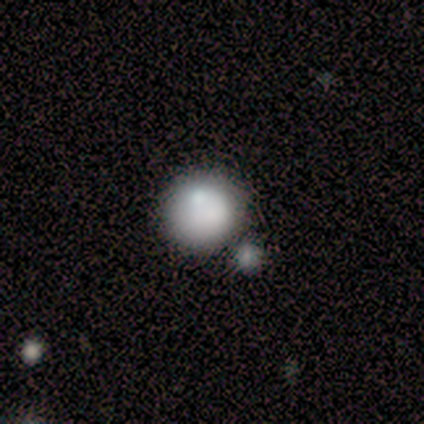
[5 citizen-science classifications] Volunteers were most divided on "merging": none: 50%, minor disturbance: 25%, merger: 25%, major disturbance: 0%. More confident: how rounded — round (100%); smooth or featured — smooth (80%).